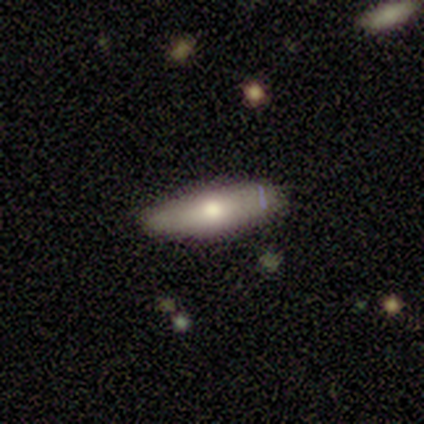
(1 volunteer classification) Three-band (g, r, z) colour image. It shows a featured or disk galaxy (100%) viewed edge-on (100%) with a rounded central bulge (100%). Merging: none (100%).